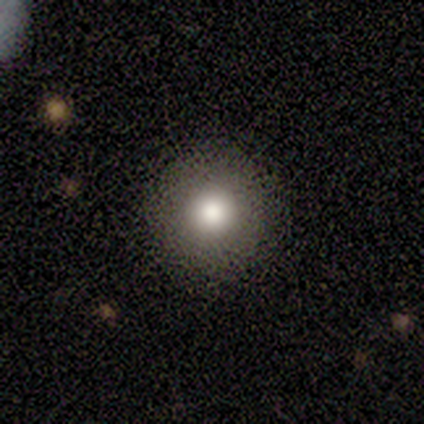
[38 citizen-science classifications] Volunteers were most divided on "smooth or featured": smooth: 71%, featured or disk: 18%, star or artifact: 11%. More confident: how rounded — round (100%); merging — none (88%).